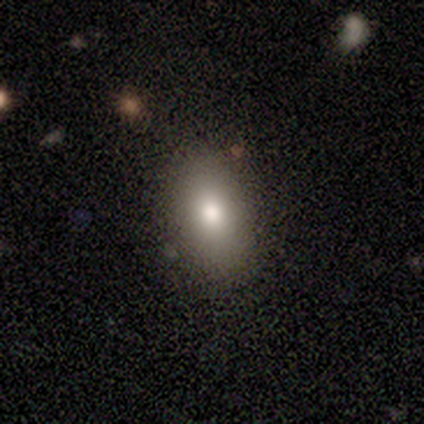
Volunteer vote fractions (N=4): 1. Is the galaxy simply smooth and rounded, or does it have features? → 75% smooth, 25% featured or disk, 0% star or artifact.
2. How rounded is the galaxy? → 100% in between, 0% round, 0% cigar-shaped.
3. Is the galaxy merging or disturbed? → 75% minor disturbance, 25% none, 0% major disturbance, 0% merger.